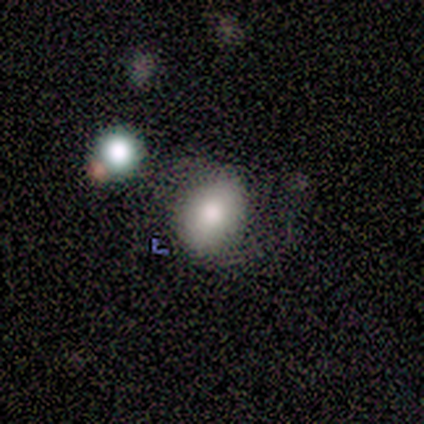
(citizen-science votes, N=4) Q: Smooth or featured?
A: smooth (100%)
Q: How rounded?
A: round (75%); runner-up: in between (25%)
Q: Merging?
A: none (75%); runner-up: major disturbance (25%)